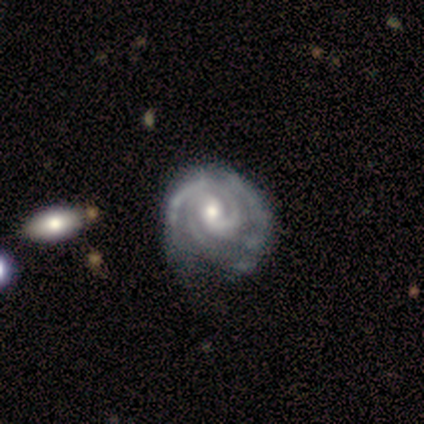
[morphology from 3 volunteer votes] Smooth or featured? featured or disk (100%)
Edge-on disk? no (100%)
Bar? weak (67%)
Spiral arms? yes (100%)
Spiral winding? tight (100%)
Spiral arm count? 2 (67%)
Bulge size? large (33%, tied with moderate and small)
Merging? minor disturbance (67%)